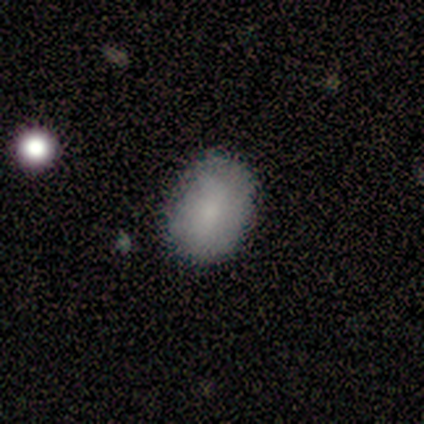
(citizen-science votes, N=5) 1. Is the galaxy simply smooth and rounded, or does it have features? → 100% smooth, 0% featured or disk, 0% star or artifact.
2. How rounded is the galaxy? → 100% in between, 0% round, 0% cigar-shaped.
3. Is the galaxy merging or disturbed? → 100% none, 0% minor disturbance, 0% major disturbance, 0% merger.